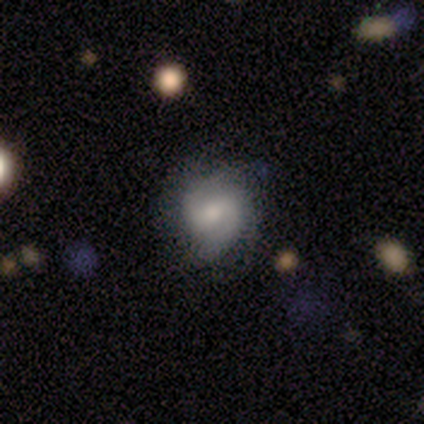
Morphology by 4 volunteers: Smooth or featured?
  - featured or disk: 100% *
  - smooth: 0%
  - star or artifact: 0%
Edge-on disk?
  - no: 100% *
  - yes: 0%
Bar?
  - strong: 50% * (tied)
  - weak: 50% * (tied)
  - no: 0%
Spiral arms?
  - yes: 100% *
  - no: 0%
Spiral winding?
  - medium: 50% *
  - tight: 25%
  - loose: 25%
Spiral arm count?
  - 2: 100% *
  - 1: 0%
  - 3: 0%
  - 4: 0%
  - more than 4: 0%
  - can't tell: 0%
Bulge size?
  - large: 50% * (tied)
  - moderate: 50% * (tied)
  - dominant: 0%
  - small: 0%
  - none: 0%
Merging?
  - none: 75% *
  - major disturbance: 25%
  - minor disturbance: 0%
  - merger: 0%